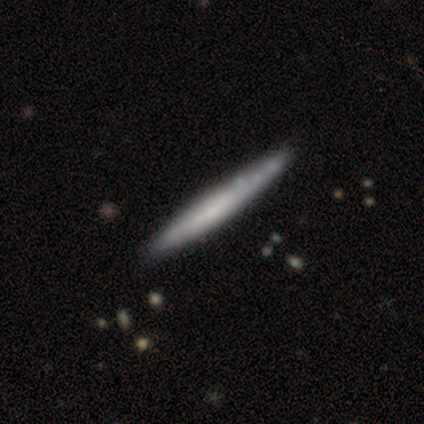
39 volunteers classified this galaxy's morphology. A featured or disk galaxy (51%) viewed edge-on (90%) with no central bulge (78%).

Vote fractions:
- Smooth or featured? featured or disk: 51% / smooth: 49% / star or artifact: 0%
- Edge-on disk? yes: 90% / no: 10%
- Edge-on bulge? none: 78% / boxy: 11% / rounded: 11%
- Merging? none: 44% / minor disturbance: 8% / merger: 8% / major disturbance: 3%